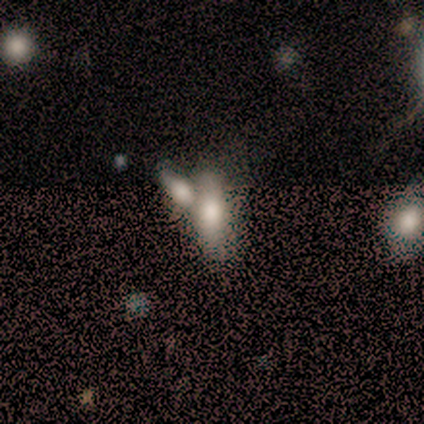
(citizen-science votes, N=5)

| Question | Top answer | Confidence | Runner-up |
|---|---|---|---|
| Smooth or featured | smooth | 100% | — |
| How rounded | cigar-shaped | 60% | in between (40%) |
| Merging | minor disturbance | 60% | none (20%) |